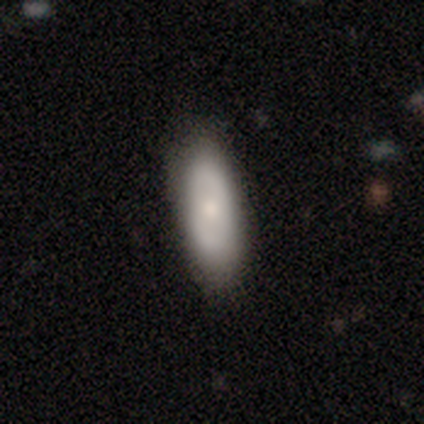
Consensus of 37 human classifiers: Smooth or featured?
  - smooth: 81% *
  - featured or disk: 19%
  - star or artifact: 0%
How rounded?
  - in between: 73% *
  - cigar-shaped: 20%
  - round: 7%
Merging?
  - none: 81% *
  - minor disturbance: 16%
  - major disturbance: 3%
  - merger: 0%